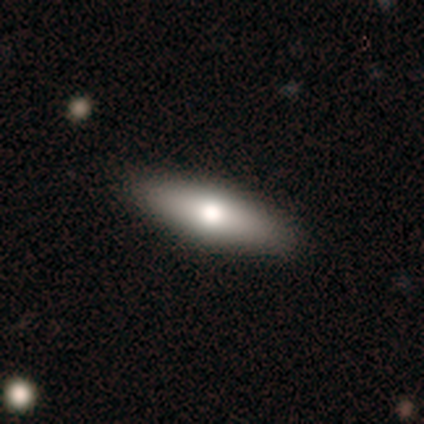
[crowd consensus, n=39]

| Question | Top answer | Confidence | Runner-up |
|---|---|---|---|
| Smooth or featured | smooth | 59% | featured or disk (36%) |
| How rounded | in between | 52% | cigar-shaped (43%) |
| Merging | none | 70% | — |